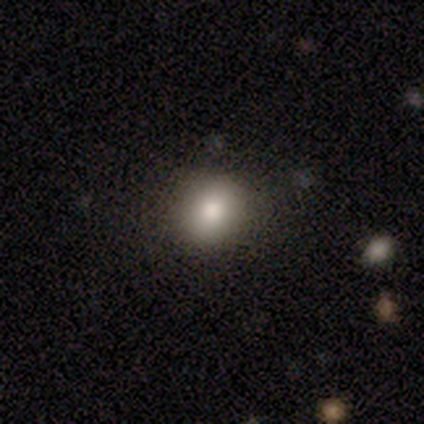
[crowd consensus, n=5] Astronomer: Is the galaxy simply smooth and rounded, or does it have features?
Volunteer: smooth — 100%.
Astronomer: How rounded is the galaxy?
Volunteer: round — 100%.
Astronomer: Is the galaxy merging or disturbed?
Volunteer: none — 80%.